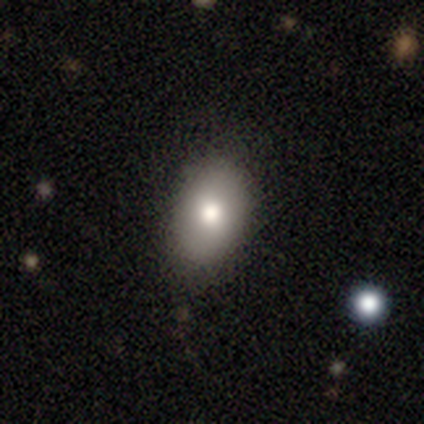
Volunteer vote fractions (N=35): A smooth galaxy with no disk features (89%) that is in between round and cigar-shaped (94%).

Vote fractions:
- Smooth or featured? smooth: 89% / featured or disk: 9% / star or artifact: 3%
- How rounded? in between: 94% / round: 6% / cigar-shaped: 0%
- Merging? none: 88% / minor disturbance: 12% / major disturbance: 0% / merger: 0%